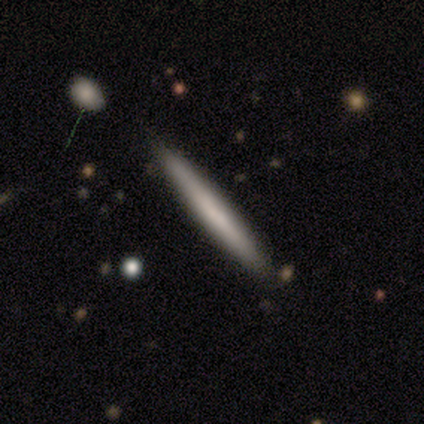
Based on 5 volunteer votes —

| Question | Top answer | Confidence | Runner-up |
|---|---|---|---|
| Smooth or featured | smooth | 60% | featured or disk (40%) |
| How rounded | cigar-shaped | 100% | — |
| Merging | none | 80% | merger (20%) |